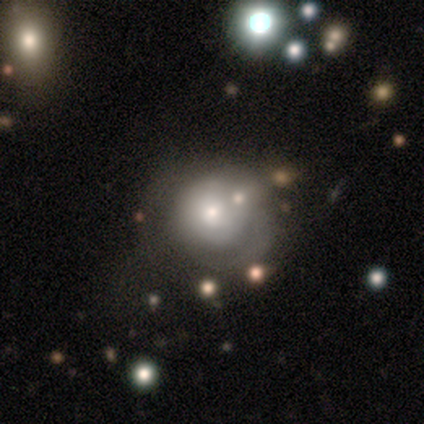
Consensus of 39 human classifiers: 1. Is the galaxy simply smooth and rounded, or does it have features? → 62% smooth, 28% featured or disk, 10% star or artifact.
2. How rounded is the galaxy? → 96% round, 4% in between, 0% cigar-shaped.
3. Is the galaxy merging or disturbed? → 43% none, 23% major disturbance, 17% minor disturbance, 17% merger.